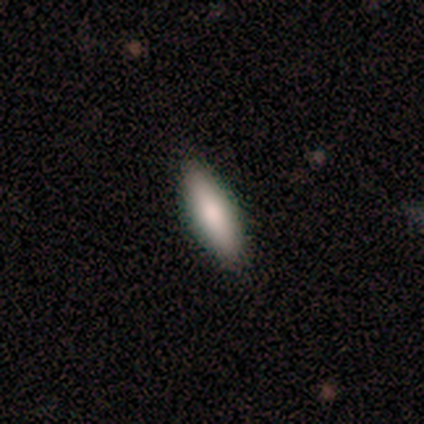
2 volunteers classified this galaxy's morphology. A smooth galaxy with no disk features (100%) that is round (50%, tied with cigar-shaped). Merging: none (50%, tied with minor disturbance).